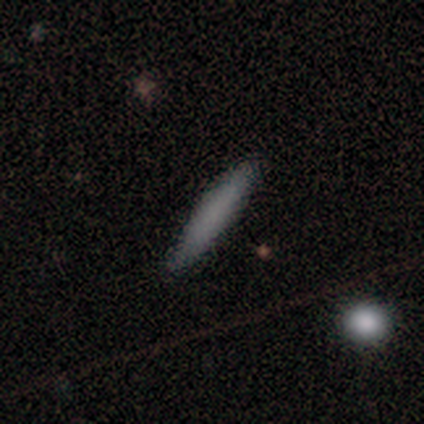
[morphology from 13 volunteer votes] Smooth or featured? 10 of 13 (77%) said smooth. How rounded? 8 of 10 (80%) said cigar-shaped. Merging? 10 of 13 (77%) said none.